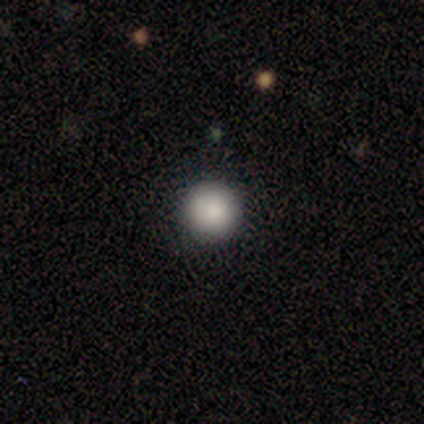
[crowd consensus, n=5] Overall: smooth (80%). How rounded: round (100%). Merging: none (100%).